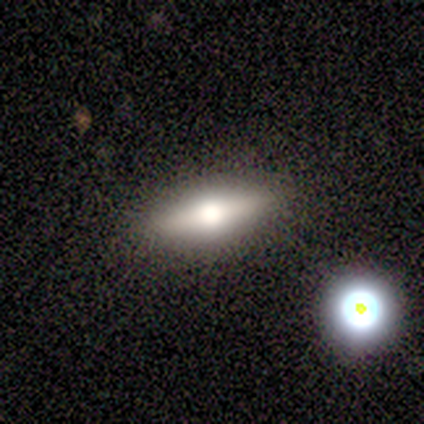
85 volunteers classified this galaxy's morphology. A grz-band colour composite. It shows a featured or disk galaxy (52%) viewed edge-on (91%) with a rounded central bulge (95%). Merging: none (84%).